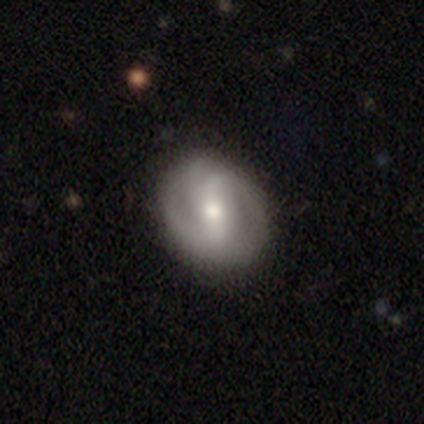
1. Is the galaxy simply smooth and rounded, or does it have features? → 62% featured or disk, 37% smooth, 1% star or artifact.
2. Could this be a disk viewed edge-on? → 98% no, 2% yes.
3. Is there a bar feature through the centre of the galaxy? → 45% strong, 36% weak, 19% no.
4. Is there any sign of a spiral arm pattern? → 74% yes, 26% no.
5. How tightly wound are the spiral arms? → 41% tight, 31% loose, 28% medium.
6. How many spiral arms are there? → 74% 2, 13% 3, 10% can't tell, 3% 4, 0% 1, 0% more than 4.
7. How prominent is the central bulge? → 62% moderate, 28% small, 4% large, 4% none, 2% dominant.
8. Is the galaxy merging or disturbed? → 80% none, 15% minor disturbance, 3% major disturbance, 1% merger.